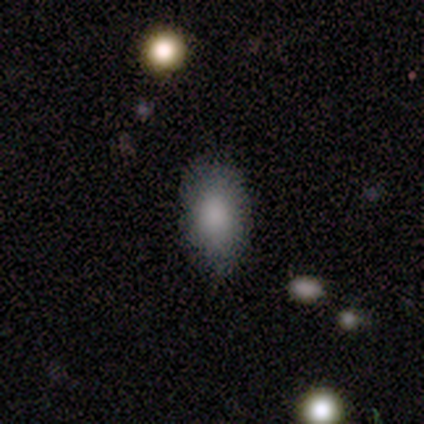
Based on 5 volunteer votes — A smooth galaxy with no disk features (100%) that is in between round and cigar-shaped (80%).

Vote fractions:
- Smooth or featured? smooth: 100% / featured or disk: 0% / star or artifact: 0%
- How rounded? in between: 80% / round: 20% / cigar-shaped: 0%
- Merging? none: 80% / minor disturbance: 20% / major disturbance: 0% / merger: 0%